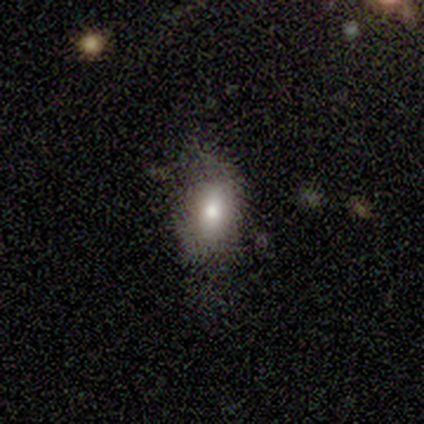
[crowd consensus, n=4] Smooth or featured?
  - smooth: 75% *
  - star or artifact: 25%
  - featured or disk: 0%
How rounded?
  - in between: 100% *
  - round: 0%
  - cigar-shaped: 0%
Merging?
  - none: 67% *
  - major disturbance: 33%
  - minor disturbance: 0%
  - merger: 0%